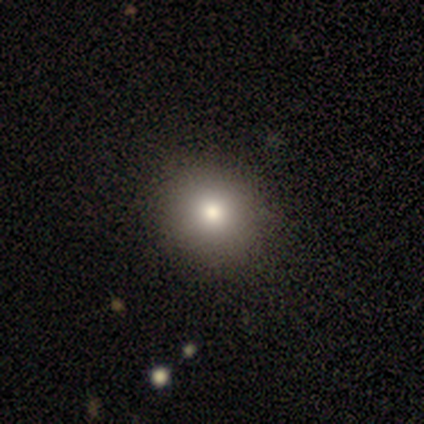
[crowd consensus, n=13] smooth_or_featured: smooth (p=0.85) [alt: star or artifact p=0.15]
how_rounded: round (p=0.73) [alt: in between p=0.27]
merging: none (p=0.82) [alt: minor disturbance p=0.09]